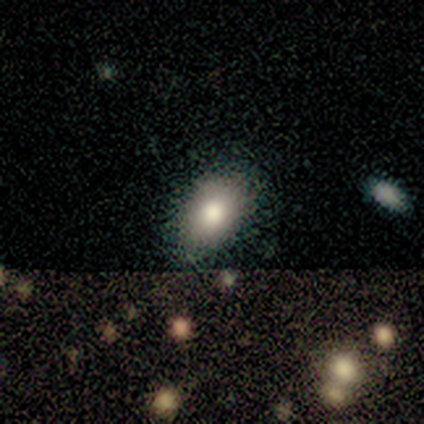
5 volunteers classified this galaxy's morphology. Smooth or featured: smooth — 60% (featured or disk — 20%)
How rounded: in between — 100%
Merging: none — 100%